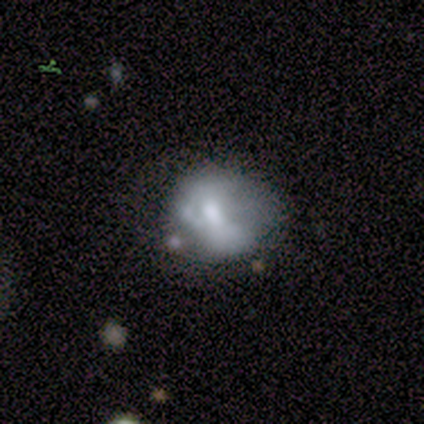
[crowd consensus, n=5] Smooth or featured? smooth (60%)
How rounded? round (67%)
Merging? minor disturbance (60%)